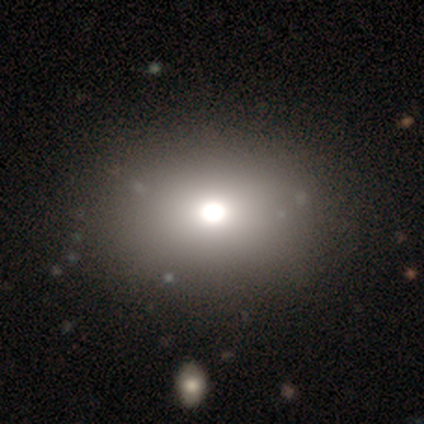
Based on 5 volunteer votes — This appears to be a smooth galaxy with no disk features (80%) that is round (50%, tied with in between). Merging: none (100%).